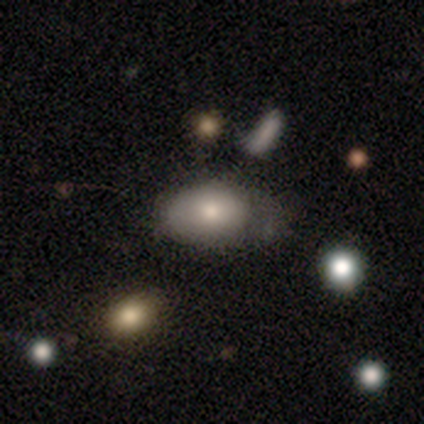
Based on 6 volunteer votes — Morphology: type=smooth (33%, tied with featured or disk and star or artifact); roundness=in between (100%); merging=none (75%).